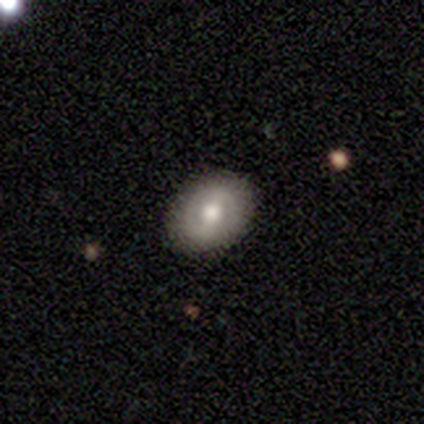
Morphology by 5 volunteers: Smooth or featured? 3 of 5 (60%) said smooth. How rounded? 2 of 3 (67%) said in between. Merging? 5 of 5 (100%) said none.